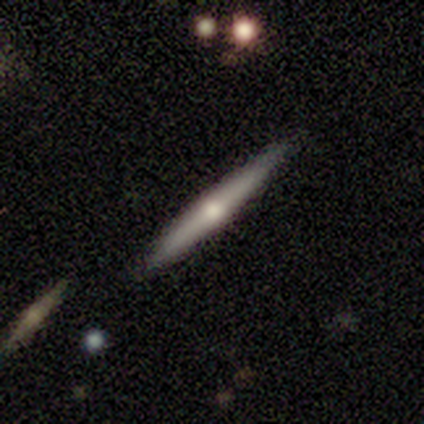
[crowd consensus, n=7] Smooth or featured? 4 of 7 (57%) said featured or disk. Edge-on disk? 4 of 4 (100%) said yes. Edge-on bulge? 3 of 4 (75%) said rounded. Merging? 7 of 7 (100%) said none.